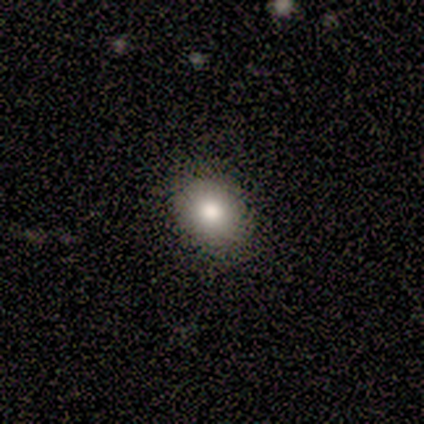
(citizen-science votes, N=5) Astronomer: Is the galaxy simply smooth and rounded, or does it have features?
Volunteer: smooth — 100%.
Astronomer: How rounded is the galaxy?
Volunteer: round — 80%.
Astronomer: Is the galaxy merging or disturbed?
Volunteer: none — 100%.